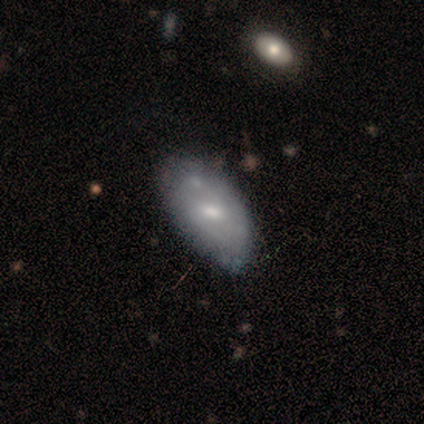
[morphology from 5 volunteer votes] This appears to be a featured or disk galaxy (60%) with a strong bar (33%, tied with weak and no), no spiral arms (67%) and a small central bulge (100%). Merging: none (60%).